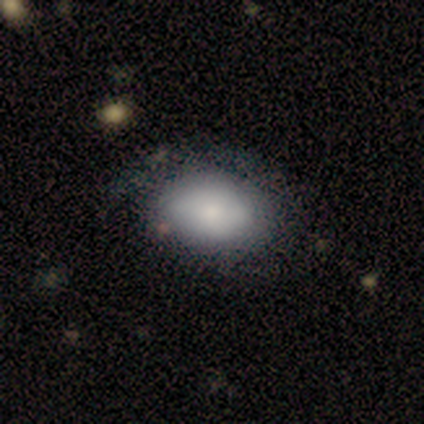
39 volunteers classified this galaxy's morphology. This is likely a smooth galaxy (72%). How rounded: clearly in between (93%). Merging: marginally none (33%).